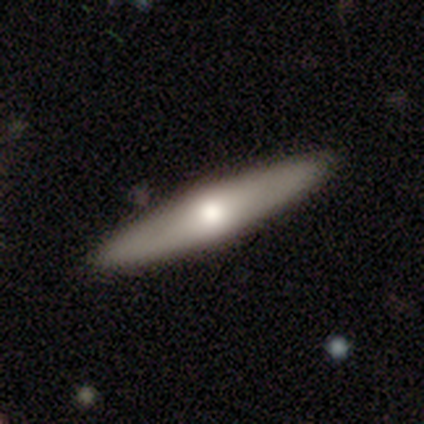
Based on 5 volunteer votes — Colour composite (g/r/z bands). It shows a featured or disk galaxy (100%) viewed edge-on (80%) with a rounded central bulge (100%). Merging: none (100%).